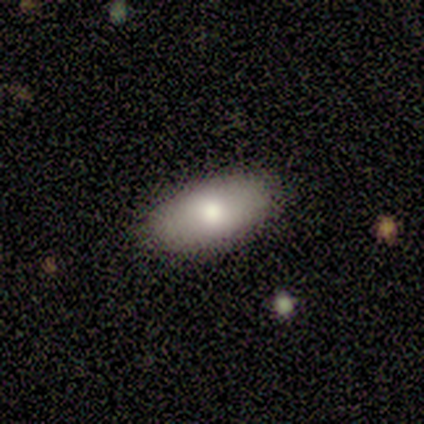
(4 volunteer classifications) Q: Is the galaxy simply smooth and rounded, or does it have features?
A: smooth — 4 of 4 (100%).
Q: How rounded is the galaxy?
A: in between — 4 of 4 (100%).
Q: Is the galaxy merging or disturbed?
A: none — 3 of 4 (75%).